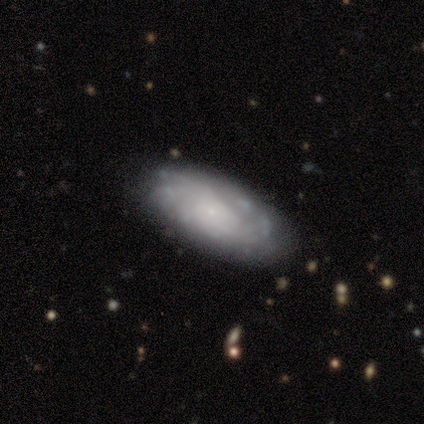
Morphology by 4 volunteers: Q: Smooth or featured?
A: featured or disk (75%); runner-up: smooth (25%)
Q: Edge-on disk?
A: no (67%); runner-up: yes (33%)
Q: Bar?
A: no (100%)
Q: Spiral arms?
A: yes (50%); tied with: no (50%)
Q: Spiral winding?
A: medium (100%)
Q: Spiral arm count?
A: can't tell (100%)
Q: Bulge size?
A: small (100%)
Q: Merging?
A: none (50%); tied with: minor disturbance (50%)